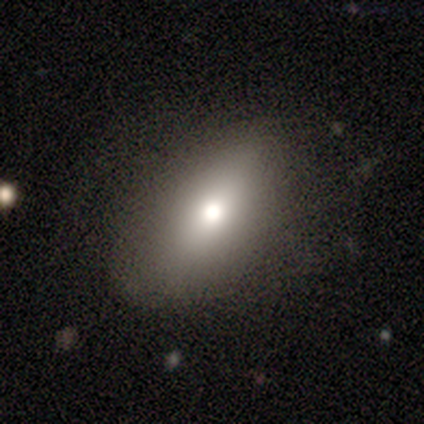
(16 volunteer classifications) This is clearly a smooth galaxy (81%). How rounded: clearly in between (85%). Merging: likely none (64%).